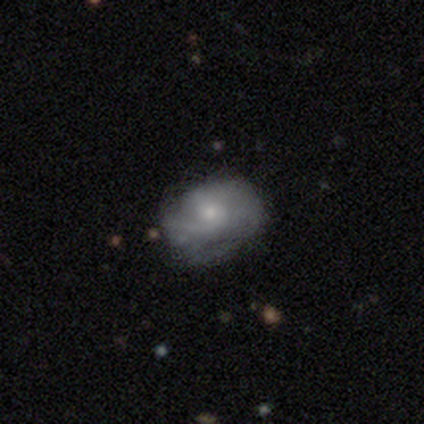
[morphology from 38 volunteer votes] This appears to be a featured or disk galaxy (61%) with no bar (74%), 2 (56%) medium (44%) spiral arms (70%) and a moderate central bulge (57%). Merging: none (65%).